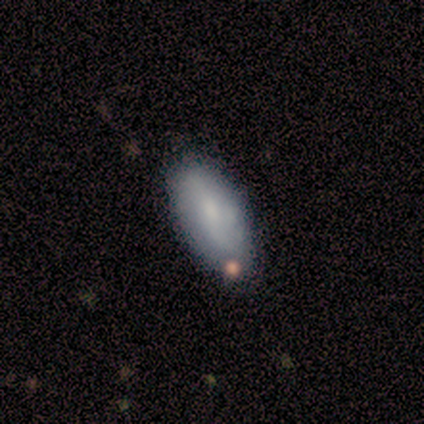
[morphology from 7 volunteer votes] Overall: featured or disk (57%; smooth 43%). Edge-on disk: no (100%). Bar: no (75%). Spiral arms: yes (75%). Spiral arm count: 2 (67%; can't tell 33%). Spiral winding: loose (67%; tight 33%). Bulge size: moderate (50%, tied with small). Merging: none (71%).